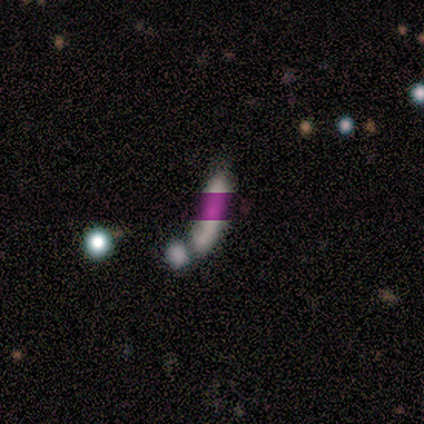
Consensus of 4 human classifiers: Morphology: type=smooth (50%); roundness=in between (50%, tied with cigar-shaped); merging=none (33%, tied with minor disturbance and merger).